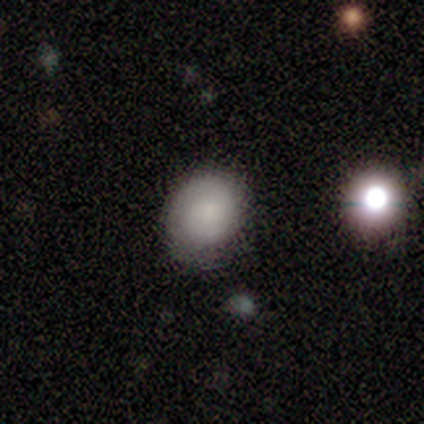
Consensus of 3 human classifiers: Smooth or featured? 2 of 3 (67%) said smooth. How rounded? 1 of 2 (50%, tied with in between) said round. Merging? 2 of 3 (67%) said none.